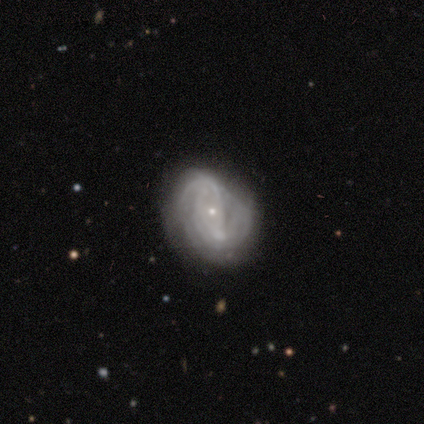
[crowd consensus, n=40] Morphology: type=featured or disk (95%); edge-on=no (100%); bar=no (74%); spiral arms=yes (92%); winding=tight (54%); arm count=can't tell (57%); bulge=small (79%); merging=none (32%).